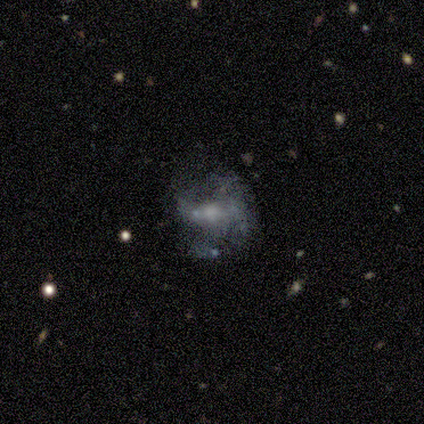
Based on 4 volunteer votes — Smooth or featured?
  - star or artifact: 50% *
  - smooth: 25%
  - featured or disk: 25%